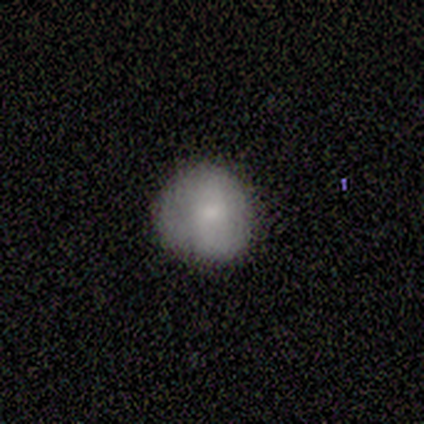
smooth 100%, featured or disk 0%, star or artifact 0%. Down the decision tree: how rounded — round (100%); merging — none (83%).